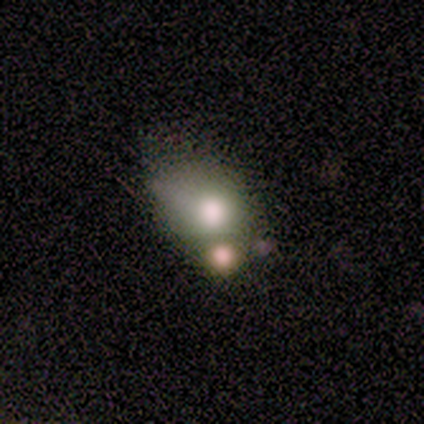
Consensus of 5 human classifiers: Smooth or featured: smooth — 80% (featured or disk — 20%)
How rounded: round — 50% (tied with in between — 50%)
Merging: minor disturbance — 40% (tied with merger — 40%)